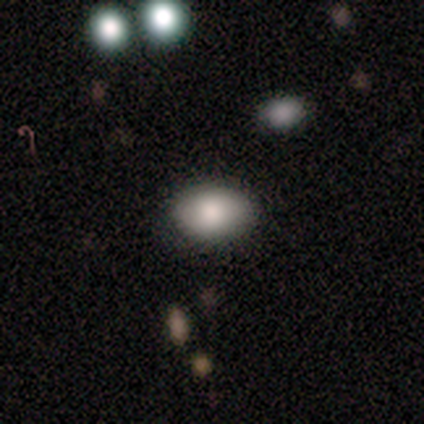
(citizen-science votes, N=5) This is likely a smooth galaxy (60%). How rounded: likely in between (67%). Merging: clearly none (100%).